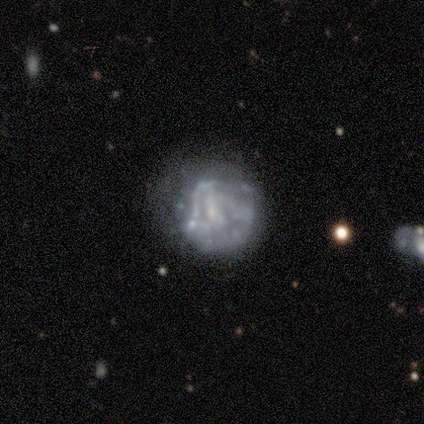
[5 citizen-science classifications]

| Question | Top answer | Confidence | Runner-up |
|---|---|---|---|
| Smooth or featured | smooth | 60% | featured or disk (40%) |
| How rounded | round | 100% | — |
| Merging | none | 60% | minor disturbance (40%) |